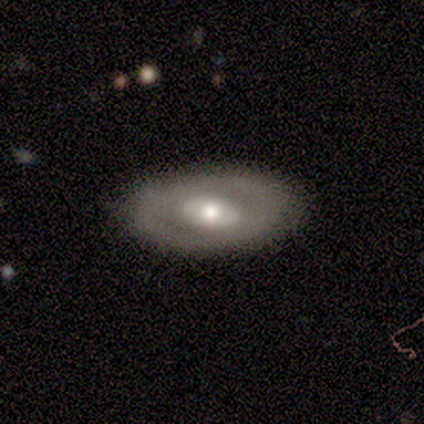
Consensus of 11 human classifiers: A featured or disk galaxy (82%) with no bar (78%), no spiral arms (100%) and a moderate central bulge (56%). Merging: none (91%).